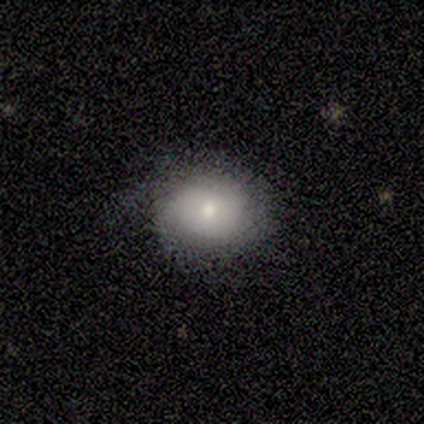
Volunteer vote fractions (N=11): Smooth or featured: smooth — 64% (featured or disk — 36%)
How rounded: round — 57% (in between — 43%)
Merging: minor disturbance — 55% (none — 45%)